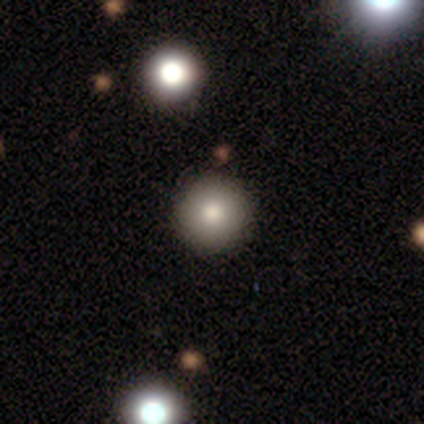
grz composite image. It shows a smooth galaxy with no disk features (86%) that is round (83%). Merging: none (100%).